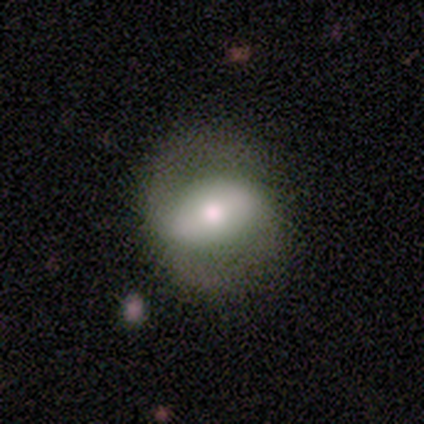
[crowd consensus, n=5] Smooth or featured? smooth (60%)
How rounded? in between (67%)
Merging? none (100%)